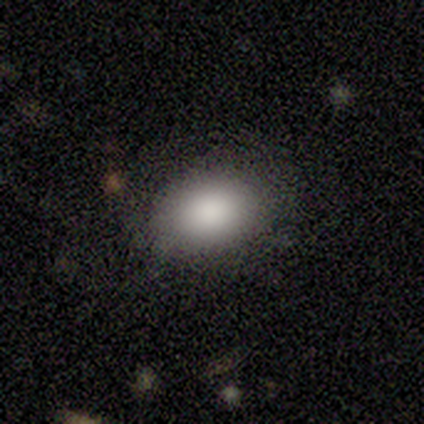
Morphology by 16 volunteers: A smooth galaxy with no disk features (88%) that is in between round and cigar-shaped (71%).

Vote fractions:
- Smooth or featured? smooth: 88% / star or artifact: 12% / featured or disk: 0%
- How rounded? in between: 71% / round: 29% / cigar-shaped: 0%
- Merging? none: 93% / minor disturbance: 7% / major disturbance: 0% / merger: 0%